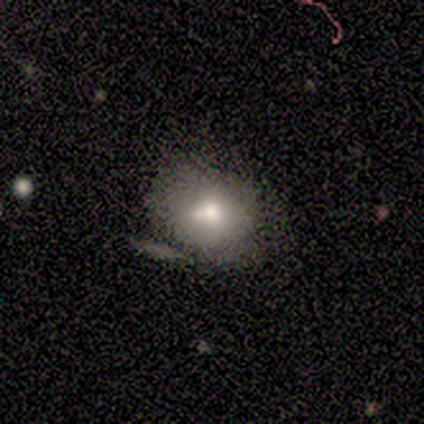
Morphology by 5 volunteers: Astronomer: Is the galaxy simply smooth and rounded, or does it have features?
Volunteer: smooth — 60% (runner-up: featured or disk, 40%).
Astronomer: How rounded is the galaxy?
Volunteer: round — 67%.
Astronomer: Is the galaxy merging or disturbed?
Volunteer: minor disturbance — 60% (runner-up: none, 40%).